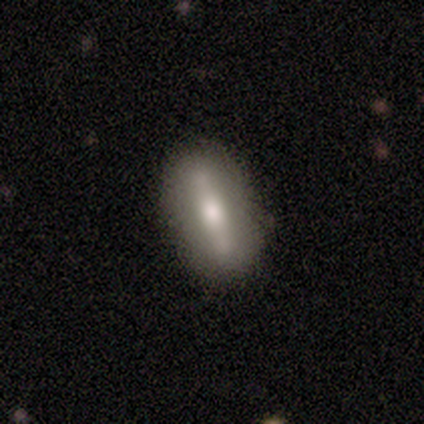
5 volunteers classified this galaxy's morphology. smooth_or_featured: featured or disk (p=1.00)
disk_edge_on: no (p=0.80) [alt: yes p=0.20]
bar: strong (p=1.00)
has_spiral_arms: no (p=1.00)
bulge_size: moderate (p=0.75) [alt: small p=0.25]
merging: none (p=0.80) [alt: minor disturbance p=0.20]